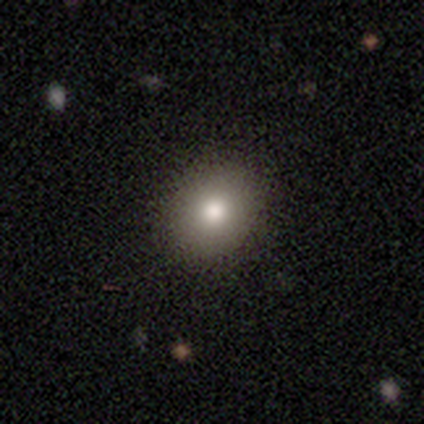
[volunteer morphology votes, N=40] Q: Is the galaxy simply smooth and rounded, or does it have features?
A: smooth — 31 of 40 (78%).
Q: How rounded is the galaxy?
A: round — 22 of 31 (71%).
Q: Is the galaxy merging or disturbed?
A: none — 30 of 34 (88%).